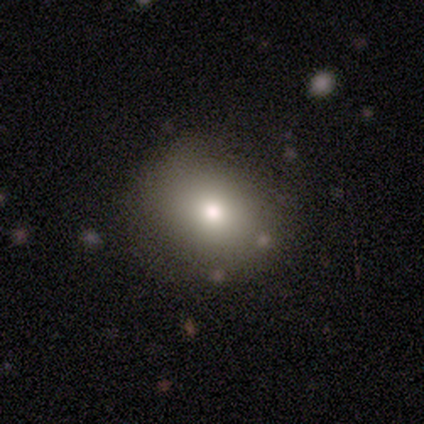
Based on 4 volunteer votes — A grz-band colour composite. It shows a smooth galaxy with no disk features (75%) that is round (67%). Merging: none (75%).